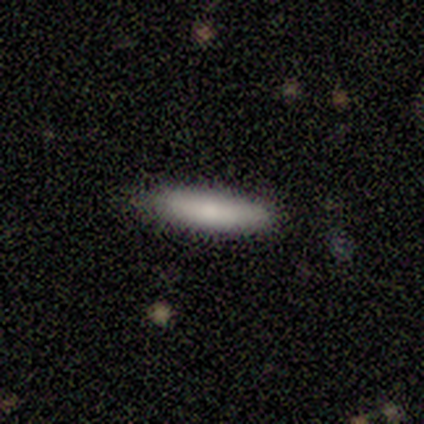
This appears to be a smooth galaxy with no disk features (83%) that is cigar-shaped (80%). Merging: none (83%).